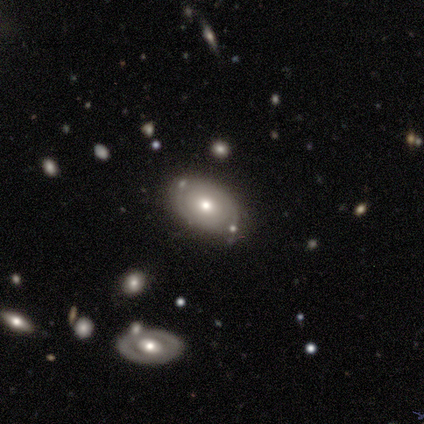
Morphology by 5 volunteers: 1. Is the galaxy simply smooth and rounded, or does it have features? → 60% featured or disk, 40% smooth, 0% star or artifact.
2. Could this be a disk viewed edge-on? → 100% no, 0% yes.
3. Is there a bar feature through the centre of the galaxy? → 67% no, 33% weak, 0% strong.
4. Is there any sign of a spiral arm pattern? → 67% no, 33% yes.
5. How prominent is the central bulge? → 100% moderate, 0% dominant, 0% large, 0% small, 0% none.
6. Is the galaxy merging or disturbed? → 60% none, 20% minor disturbance, 20% merger, 0% major disturbance.